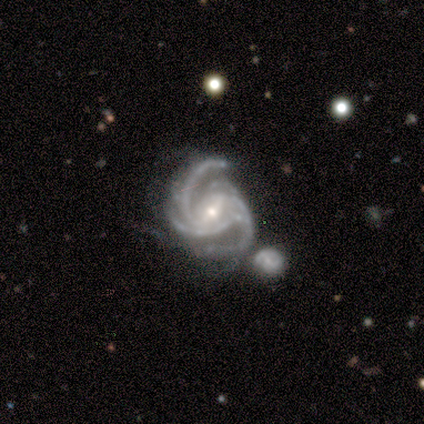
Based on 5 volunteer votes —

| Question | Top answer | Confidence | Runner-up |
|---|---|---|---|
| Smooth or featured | featured or disk | 80% | star or artifact (20%) |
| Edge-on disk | no | 100% | — |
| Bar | weak | 75% | strong (25%) |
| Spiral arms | yes | 100% | — |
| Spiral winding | medium | 75% | loose (25%) |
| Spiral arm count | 2 | 25% | tied: 3 (25%), more than 4 (25%), can't tell (25%) |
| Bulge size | moderate | 75% | small (25%) |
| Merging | major disturbance | 50% | minor disturbance (25%) |